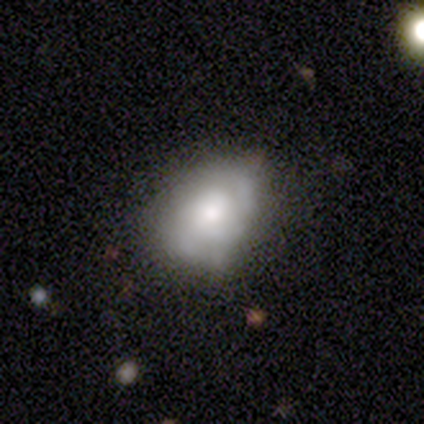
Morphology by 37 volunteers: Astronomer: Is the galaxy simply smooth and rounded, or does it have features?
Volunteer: featured or disk — 46% (runner-up: smooth, 41%).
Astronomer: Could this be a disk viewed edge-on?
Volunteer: no — 100%.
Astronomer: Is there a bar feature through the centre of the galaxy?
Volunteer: no — 100%.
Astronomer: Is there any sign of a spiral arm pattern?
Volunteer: yes — 71%.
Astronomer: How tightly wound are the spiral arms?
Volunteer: medium — 50% (runner-up: tight, 42%).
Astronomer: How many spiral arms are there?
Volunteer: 2 — 67%.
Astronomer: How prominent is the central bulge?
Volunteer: moderate — 47% (runner-up: small, 29%).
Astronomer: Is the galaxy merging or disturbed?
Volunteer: none — 59%.